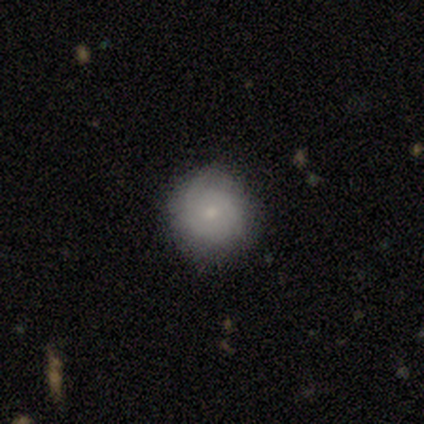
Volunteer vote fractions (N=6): A smooth galaxy with no disk features (50%, tied with featured or disk) that is round (100%). Merging: none (83%).